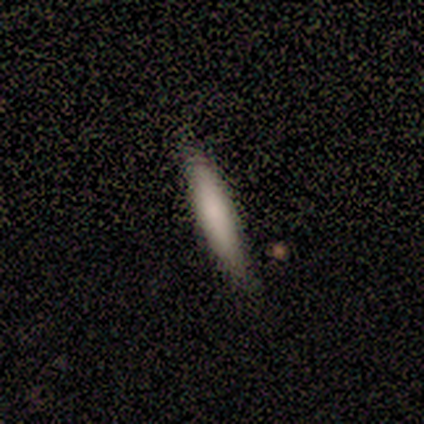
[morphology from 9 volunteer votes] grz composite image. It shows a smooth galaxy with no disk features (78%) that is cigar-shaped (57%). Merging: none (100%).